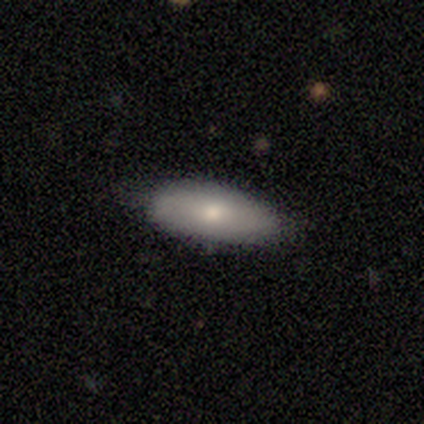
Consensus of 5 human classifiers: smooth-or-featured: smooth: 60% | featured or disk: 20% | star or artifact: 20%
  how-rounded: in between: 67% | cigar-shaped: 33% | round: 0%
  merging: none: 100% | minor disturbance: 0% | major disturbance: 0% | merger: 0%